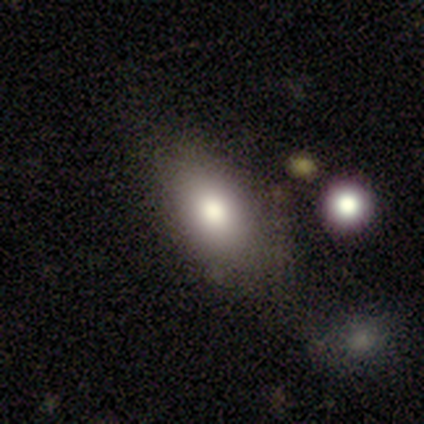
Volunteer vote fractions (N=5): This is clearly a smooth galaxy (80%). How rounded: clearly in between (100%). Merging: likely none (75%).